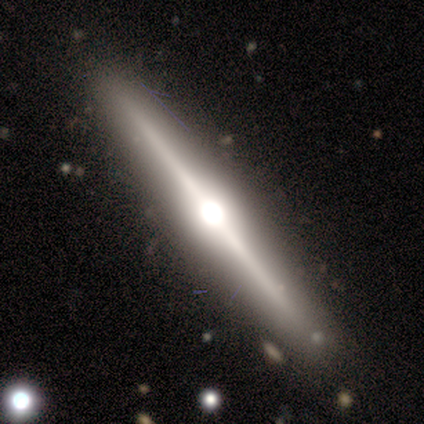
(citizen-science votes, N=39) Q: Smooth or featured?
A: featured or disk (79%); runner-up: smooth (21%)
Q: Edge-on disk?
A: yes (100%)
Q: Edge-on bulge?
A: rounded (84%); runner-up: boxy (16%)
Q: Merging?
A: none (90%); runner-up: minor disturbance (5%)